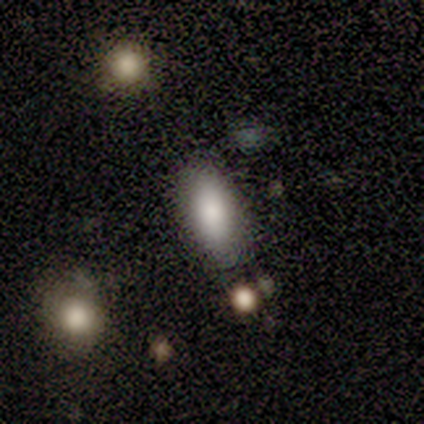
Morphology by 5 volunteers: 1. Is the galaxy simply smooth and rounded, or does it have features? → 80% smooth, 20% featured or disk, 0% star or artifact.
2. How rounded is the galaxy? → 100% in between, 0% round, 0% cigar-shaped.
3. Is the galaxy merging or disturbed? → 60% none, 20% minor disturbance, 20% merger, 0% major disturbance.